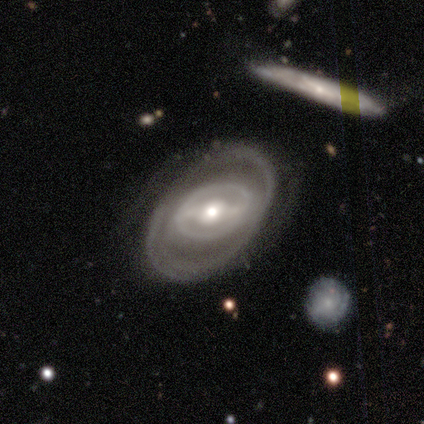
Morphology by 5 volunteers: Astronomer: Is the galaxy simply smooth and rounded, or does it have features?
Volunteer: featured or disk — 80%.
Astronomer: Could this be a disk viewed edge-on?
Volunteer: no — 100%.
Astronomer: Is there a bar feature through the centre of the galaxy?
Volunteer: strong — 75%.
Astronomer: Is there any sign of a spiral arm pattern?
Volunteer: yes — 75%.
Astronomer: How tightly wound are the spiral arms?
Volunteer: tight — 100%.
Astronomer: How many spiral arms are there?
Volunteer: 2 — 100%.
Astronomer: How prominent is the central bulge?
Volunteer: moderate — 100%.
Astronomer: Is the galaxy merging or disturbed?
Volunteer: none — 100%.